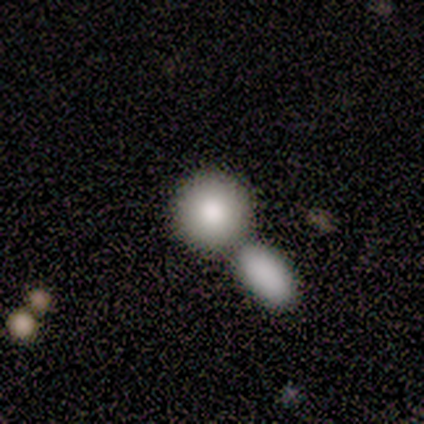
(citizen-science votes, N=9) Q: Smooth or featured?
A: smooth (78%); runner-up: featured or disk (22%)
Q: How rounded?
A: round (100%)
Q: Merging?
A: merger (56%); runner-up: none (44%)